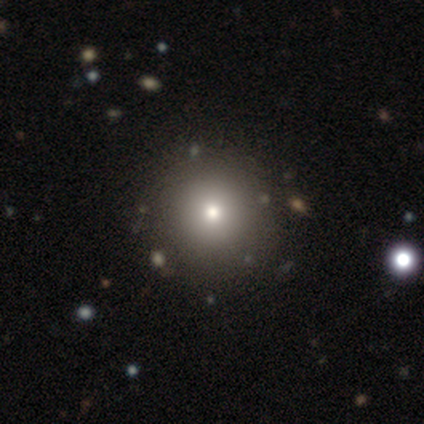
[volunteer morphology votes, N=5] Smooth or featured? smooth (100%)
How rounded? round (100%)
Merging? none (100%)